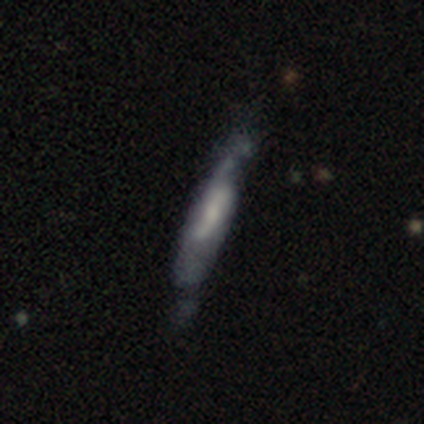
Smooth or featured? 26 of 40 (65%) said featured or disk. Edge-on disk? 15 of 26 (58%) said no. Bar? 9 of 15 (60%) said no. Spiral arms? 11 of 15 (73%) said yes. Spiral winding? 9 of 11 (82%) said loose. Spiral arm count? 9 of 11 (82%) said 2. Bulge size? 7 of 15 (47%) said small. Merging? 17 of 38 (45%) said none.